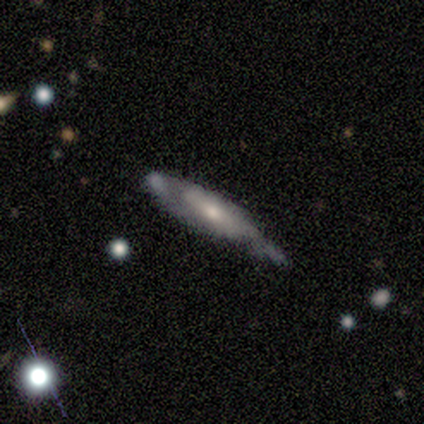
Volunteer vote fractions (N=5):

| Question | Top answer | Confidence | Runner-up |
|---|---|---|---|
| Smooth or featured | featured or disk | 60% | smooth (20%) |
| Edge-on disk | no | 67% | yes (33%) |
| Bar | weak | 50% | tied: no (50%) |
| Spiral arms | yes | 100% | — |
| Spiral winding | tight | 50% | tied: medium (50%) |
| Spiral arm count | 2 | 100% | — |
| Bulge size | moderate | 50% | tied: small (50%) |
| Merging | none | 75% | minor disturbance (25%) |